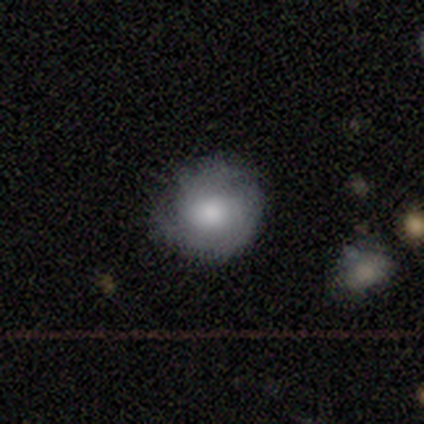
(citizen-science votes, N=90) Smooth or featured: smooth — 51% (featured or disk — 43%)
How rounded: round — 91% (in between — 9%)
Merging: none — 75% (minor disturbance — 24%)